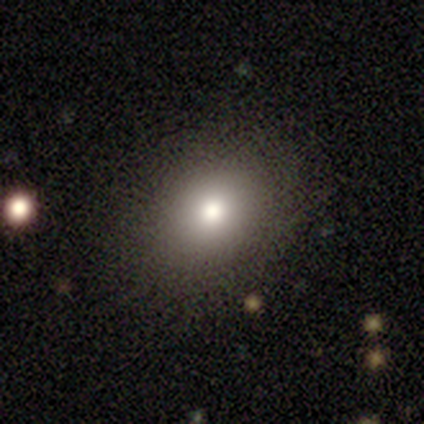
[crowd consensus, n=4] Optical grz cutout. It shows a smooth galaxy with no disk features (75%) that is in between round and cigar-shaped (67%). Merging: none (100%).